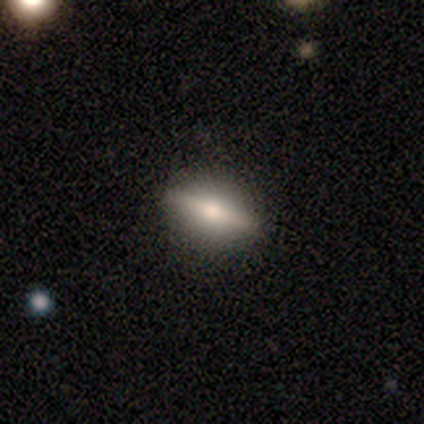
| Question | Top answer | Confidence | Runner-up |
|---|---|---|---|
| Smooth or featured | smooth | 60% | featured or disk (40%) |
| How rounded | cigar-shaped | 67% | in between (33%) |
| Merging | none | 80% | minor disturbance (20%) |